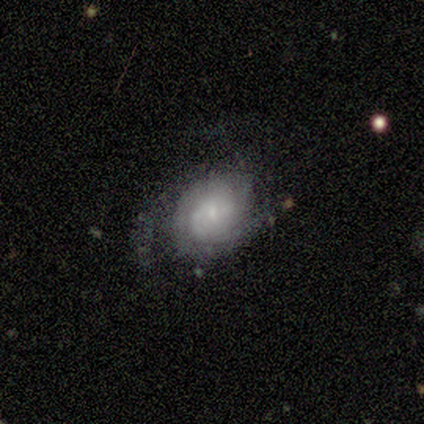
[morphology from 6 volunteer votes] Overall: featured or disk (100%). Edge-on disk: no (100%). Bar: no (83%). Spiral arms: yes (100%). Spiral arm count: 3 (33%, tied with can't tell). Spiral winding: tight (50%, tied with medium). Bulge size: small (67%). Merging: none (83%).